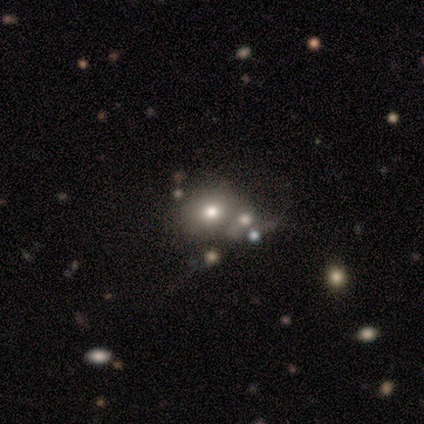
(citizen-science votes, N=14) smooth-or-featured: smooth: 71% | star or artifact: 29% | featured or disk: 0%
  how-rounded: round: 50% (tied) | in between: 50% (tied) | cigar-shaped: 0%
  merging: none: 50% | merger: 40% | major disturbance: 10% | minor disturbance: 0%